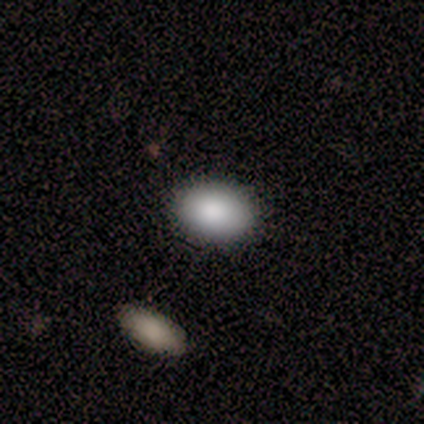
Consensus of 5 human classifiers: Consensus on every question: smooth or featured — smooth (100%); how rounded — in between (100%); merging — none (100%).